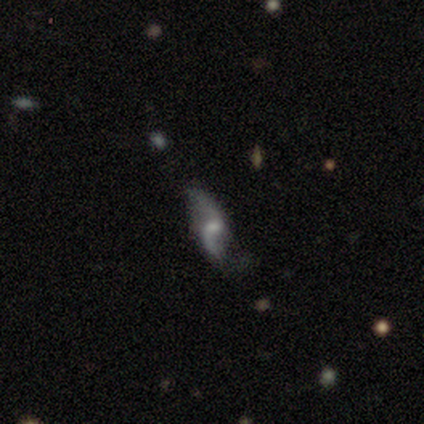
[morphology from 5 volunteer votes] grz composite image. It shows a featured or disk galaxy (80%) with a weak bar (50%), 2 (75%) loose (100%) spiral arms (100%) and no central bulge (50%). Merging: none (40%, tied with minor disturbance).